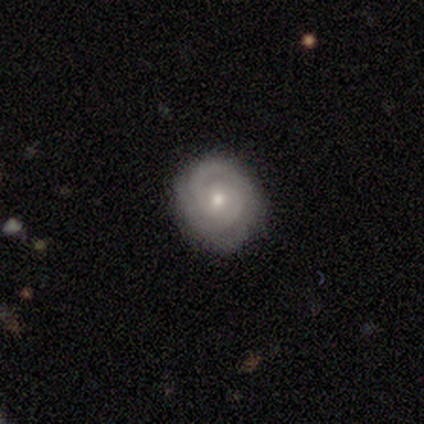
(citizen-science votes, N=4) This is likely a featured or disk galaxy (75%). It is clearly not viewed edge-on (100%). Bar: likely no (67%). Spiral arm pattern: clearly yes (100%). Spiral arm count: marginally 2 (33%, tied with 3 and can't tell). Spiral winding: clearly tight (100%). Central bulge: likely small (67%). Merging: likely none (75%).